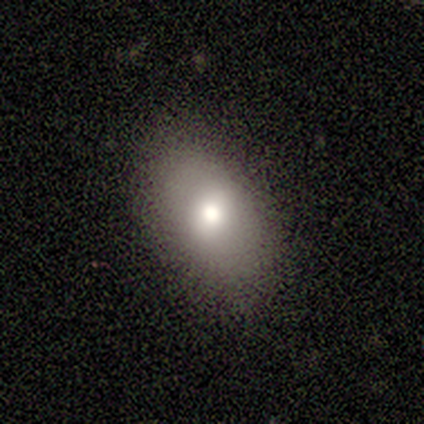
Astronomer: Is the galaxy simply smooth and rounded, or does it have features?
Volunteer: smooth — 83%.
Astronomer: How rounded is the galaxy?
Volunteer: in between — 80%.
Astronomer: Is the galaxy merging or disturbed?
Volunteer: none — 100%.